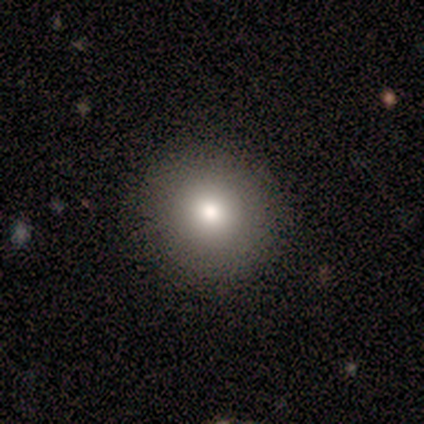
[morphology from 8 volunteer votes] smooth-or-featured: smooth: 62% | featured or disk: 38% | star or artifact: 0%
  how-rounded: round: 100% | in between: 0% | cigar-shaped: 0%
  merging: none: 75% | minor disturbance: 12% | major disturbance: 12% | merger: 0%